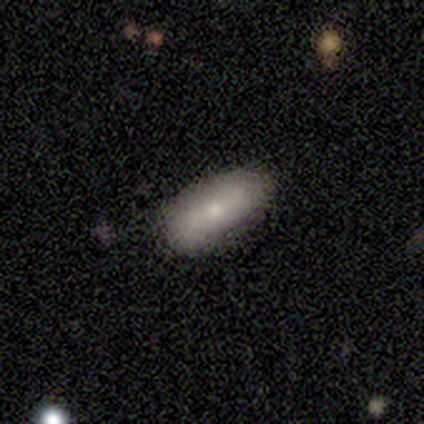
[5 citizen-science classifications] Morphology: type=smooth (60%); roundness=in between (100%); merging=none (60%).